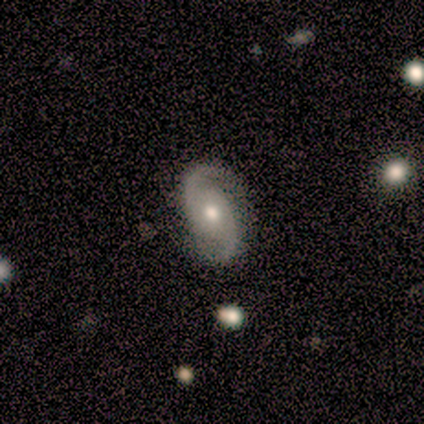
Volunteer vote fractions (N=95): Q: Smooth or featured?
A: featured or disk (92%); runner-up: smooth (4%)
Q: Edge-on disk?
A: no (99%); runner-up: yes (1%)
Q: Bar?
A: no (83%); runner-up: weak (15%)
Q: Spiral arms?
A: yes (100%)
Q: Spiral winding?
A: medium (51%); runner-up: tight (29%)
Q: Spiral arm count?
A: 2 (95%); runner-up: can't tell (3%)
Q: Bulge size?
A: moderate (80%); runner-up: small (14%)
Q: Merging?
A: none (89%); runner-up: minor disturbance (9%)